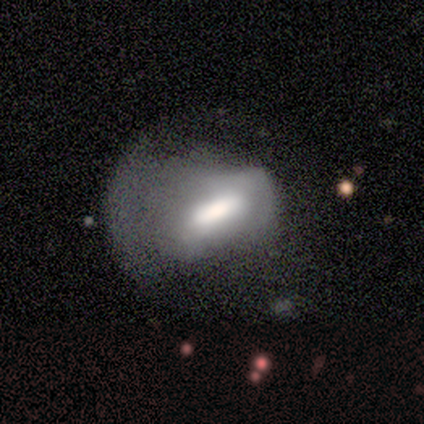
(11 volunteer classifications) Overall: smooth (45%, tied with featured or disk). How rounded: in between (100%). Merging: major disturbance (100%).